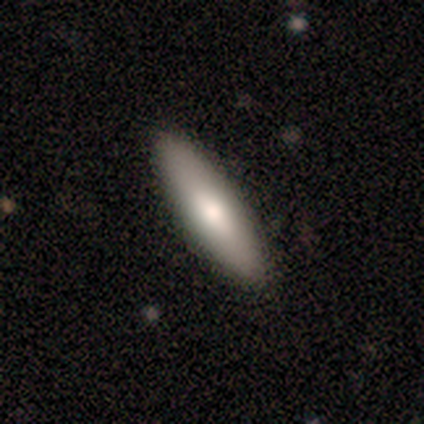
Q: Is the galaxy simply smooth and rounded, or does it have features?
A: smooth — 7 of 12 (58%).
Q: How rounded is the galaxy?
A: cigar-shaped — 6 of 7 (86%).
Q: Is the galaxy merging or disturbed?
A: none — 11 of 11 (100%).